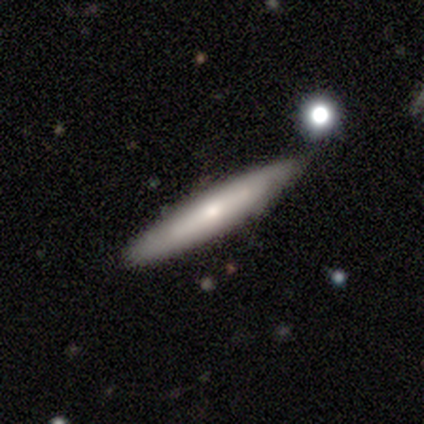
Smooth or featured: featured or disk — 75% (smooth — 25%)
Edge-on disk: yes — 83% (no — 17%)
Edge-on bulge: boxy — 40% (tied with rounded — 40%)
Merging: none — 50% (tied with minor disturbance — 50%)